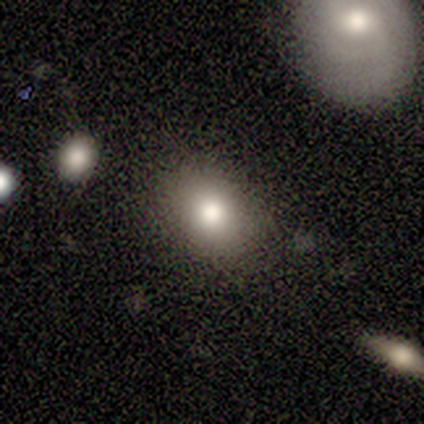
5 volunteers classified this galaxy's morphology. This appears to be a smooth galaxy with no disk features (60%) that is in between round and cigar-shaped (67%). Merging: none (100%).